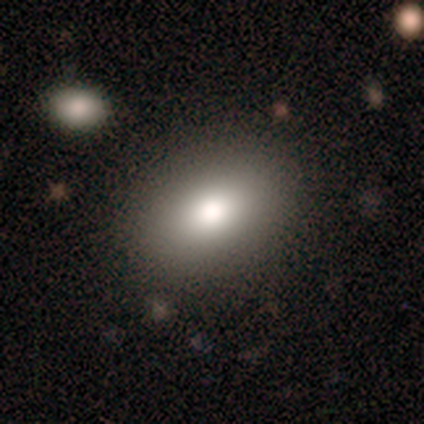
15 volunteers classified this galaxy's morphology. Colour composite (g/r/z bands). It shows a smooth galaxy with no disk features (80%) that is in between round and cigar-shaped (83%). Merging: none (93%).